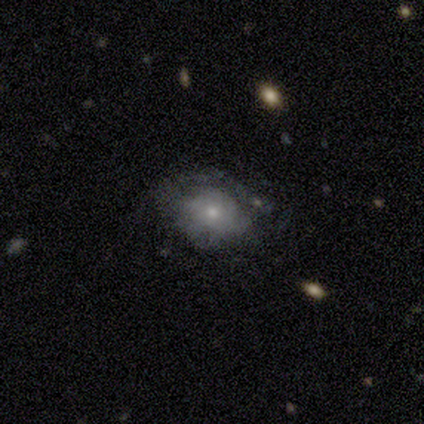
Smooth or featured? 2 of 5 (40%, tied with featured or disk) said smooth. How rounded? 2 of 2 (100%) said in between. Merging? 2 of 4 (50%, tied with minor disturbance) said none.